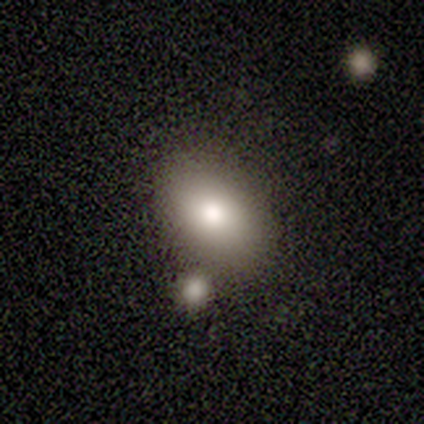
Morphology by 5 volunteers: smooth-or-featured: smooth: 100% | featured or disk: 0% | star or artifact: 0%
  how-rounded: in between: 80% | round: 20% | cigar-shaped: 0%
  merging: none: 40% (tied) | merger: 40% (tied) | minor disturbance: 20% | major disturbance: 0%